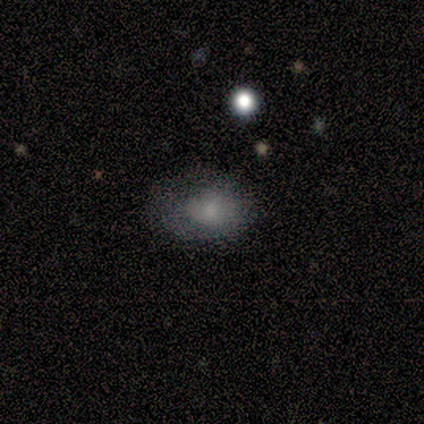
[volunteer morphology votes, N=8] smooth-or-featured: smooth: 75% | featured or disk: 12% | star or artifact: 12%
  how-rounded: in between: 67% | round: 17% | cigar-shaped: 17%
  merging: none: 71% | minor disturbance: 14% | major disturbance: 14% | merger: 0%